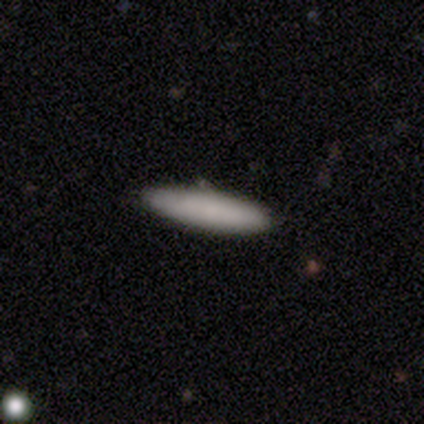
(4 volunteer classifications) smooth_or_featured: smooth (p=0.50) [tied with: featured or disk p=0.50]
how_rounded: cigar-shaped (p=1.00)
merging: none (p=1.00)